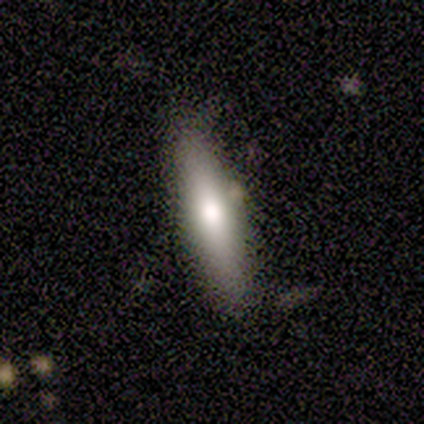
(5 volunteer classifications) Smooth or featured: smooth — 80% (featured or disk — 20%)
How rounded: cigar-shaped — 75% (in between — 25%)
Merging: none — 60% (minor disturbance — 40%)